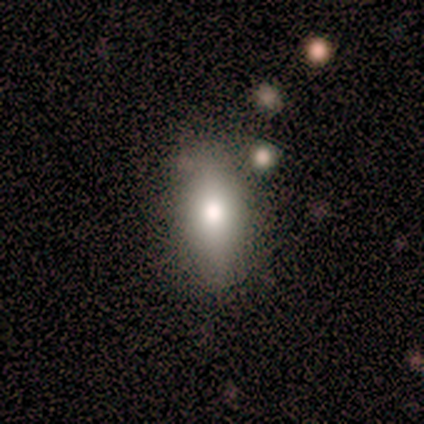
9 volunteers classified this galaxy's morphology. Smooth or featured?
  - smooth: 78% *
  - featured or disk: 11%
  - star or artifact: 11%
How rounded?
  - in between: 86% *
  - cigar-shaped: 14%
  - round: 0%
Merging?
  - none: 75% *
  - minor disturbance: 25%
  - major disturbance: 0%
  - merger: 0%